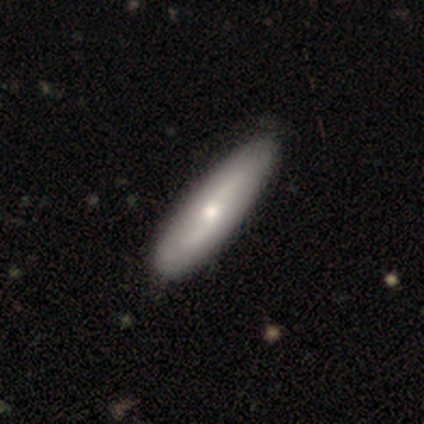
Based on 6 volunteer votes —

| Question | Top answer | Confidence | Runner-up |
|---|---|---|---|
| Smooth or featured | featured or disk | 67% | smooth (33%) |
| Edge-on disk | no | 100% | — |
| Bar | weak | 50% | tied: no (50%) |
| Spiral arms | yes | 50% | tied: no (50%) |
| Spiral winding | loose | 100% | — |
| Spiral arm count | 2 | 100% | — |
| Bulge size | moderate | 50% | tied: small (50%) |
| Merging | none | 50% | tied: minor disturbance (50%) |